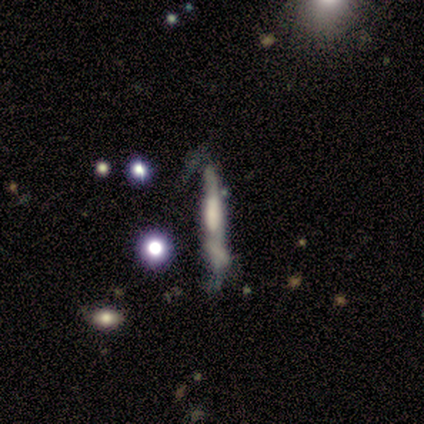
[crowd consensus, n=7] Smooth or featured? featured or disk (71%)
Edge-on disk? yes (60%)
Edge-on bulge? boxy (100%)
Merging? none (50%)